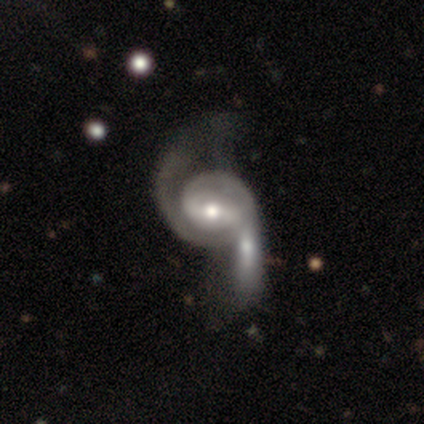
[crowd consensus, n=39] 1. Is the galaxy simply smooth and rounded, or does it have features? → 90% featured or disk, 5% smooth, 5% star or artifact.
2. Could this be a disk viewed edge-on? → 97% no, 3% yes.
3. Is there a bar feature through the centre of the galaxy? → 41% weak, 29% strong, 29% no.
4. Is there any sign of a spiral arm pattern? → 97% yes, 3% no.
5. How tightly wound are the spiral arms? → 39% loose, 33% medium, 27% tight.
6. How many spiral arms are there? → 70% 2, 15% can't tell, 12% 1, 3% 3, 0% 4, 0% more than 4.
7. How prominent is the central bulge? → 65% moderate, 26% small, 9% large, 0% dominant, 0% none.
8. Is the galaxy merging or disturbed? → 62% merger, 16% major disturbance, 11% none, 11% minor disturbance.